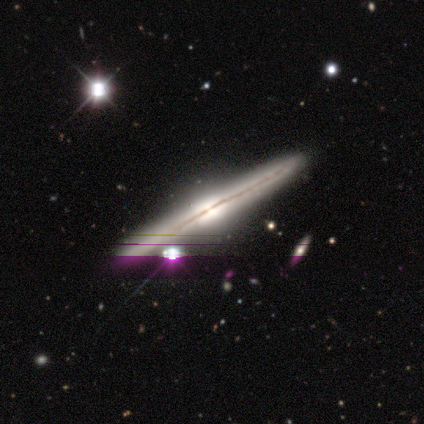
Smooth or featured: featured or disk — 100%
Edge-on disk: yes — 100%
Edge-on bulge: rounded — 60% (boxy — 40%)
Merging: none — 80% (major disturbance — 20%)